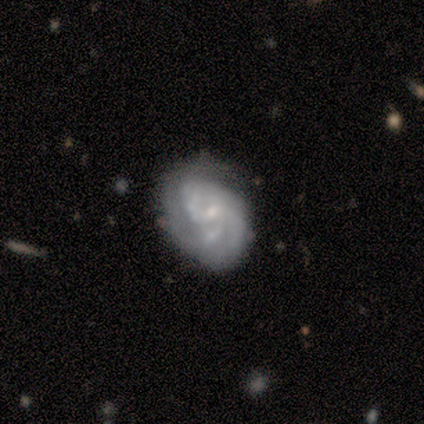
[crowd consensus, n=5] Volunteers were most divided on "smooth or featured": featured or disk: 60%, star or artifact: 40%, smooth: 0%. More confident: edge-on disk — no (100%); spiral arms — yes (100%); bar — weak (67%); spiral winding — tight (67%); spiral arm count — can't tell (67%); bulge size — small (67%); merging — none (67%).